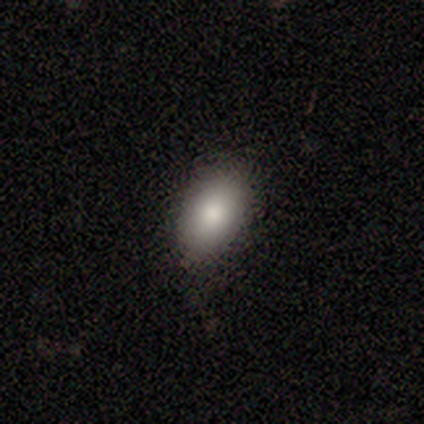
Smooth or featured?
  - smooth: 80% *
  - star or artifact: 20%
  - featured or disk: 0%
How rounded?
  - in between: 100% *
  - round: 0%
  - cigar-shaped: 0%
Merging?
  - none: 50% *
  - minor disturbance: 25%
  - major disturbance: 25%
  - merger: 0%